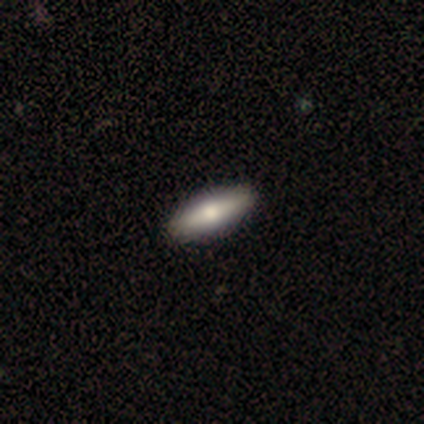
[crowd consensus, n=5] Volunteers were most divided on "edge-on disk": yes: 75%, no: 25%. More confident: edge-on bulge — rounded (100%); merging — none (100%); smooth or featured — featured or disk (80%).